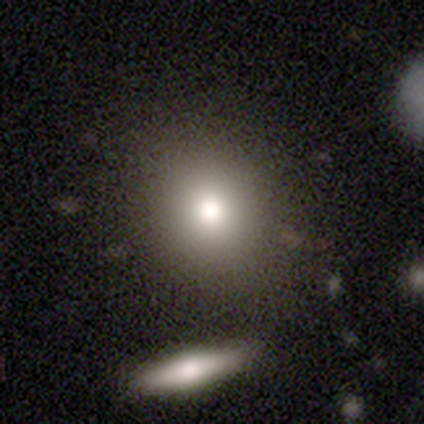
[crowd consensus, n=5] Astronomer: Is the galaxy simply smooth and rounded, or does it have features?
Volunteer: smooth — 100%.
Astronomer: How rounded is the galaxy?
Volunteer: round — 100%.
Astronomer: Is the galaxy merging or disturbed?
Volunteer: none — 100%.